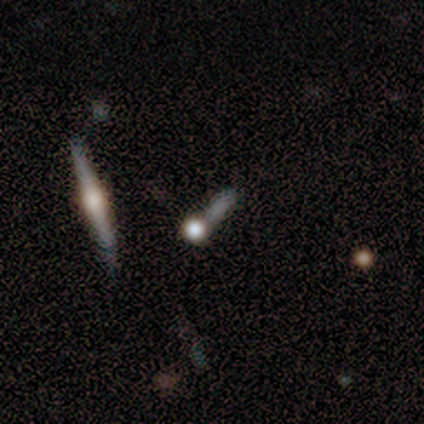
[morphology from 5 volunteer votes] A featured or disk galaxy (60%) viewed edge-on (100%) with a rounded central bulge (100%). Merging: none (60%).